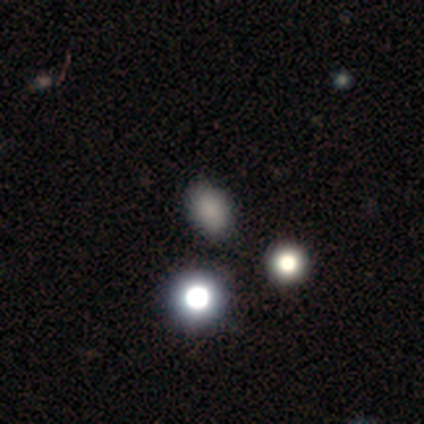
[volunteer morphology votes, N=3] smooth 67%, star or artifact 33%, featured or disk 0%. Down the decision tree: how rounded — in between (100%); merging — none (100%).